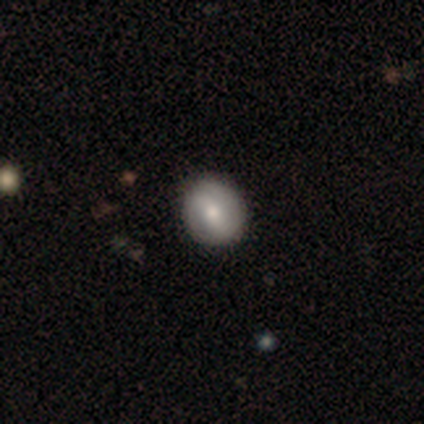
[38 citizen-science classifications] smooth 71%, featured or disk 26%, star or artifact 3%. Down the decision tree: how rounded — round (74%); merging — none (81%).